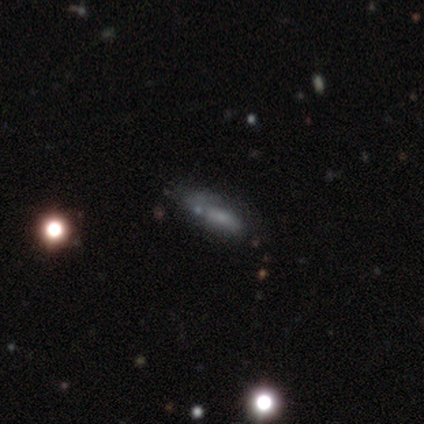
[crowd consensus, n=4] This appears to be a smooth galaxy with no disk features (75%) that is cigar-shaped (67%). Merging: minor disturbance (67%).